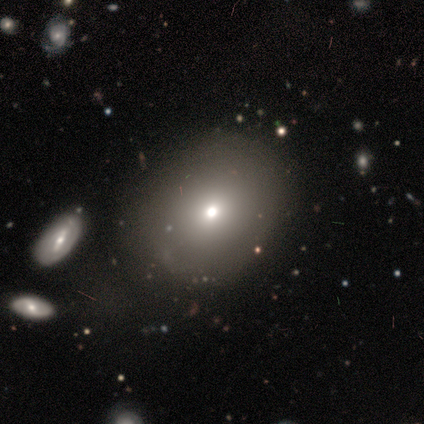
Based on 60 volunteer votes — Overall: smooth (82%). How rounded: round (53%; in between 47%). Merging: none (56%; minor disturbance 17%).